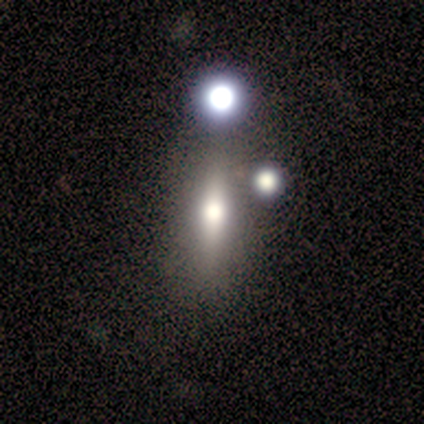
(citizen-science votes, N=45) Volunteers were most divided on "smooth or featured" (2-way tie): smooth: 44%, featured or disk: 44%, star or artifact: 11%. More confident: merging — none (68%); how rounded — in between (50%).